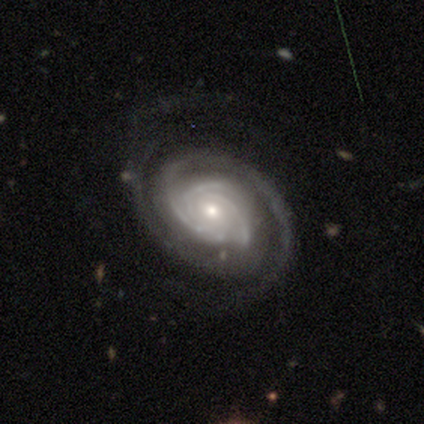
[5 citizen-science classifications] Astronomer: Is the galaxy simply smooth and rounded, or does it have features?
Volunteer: featured or disk — 100%.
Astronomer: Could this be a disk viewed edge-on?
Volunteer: no — 100%.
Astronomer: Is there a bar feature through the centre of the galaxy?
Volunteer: no — 80%.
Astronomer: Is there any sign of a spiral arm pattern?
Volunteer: yes — 100%.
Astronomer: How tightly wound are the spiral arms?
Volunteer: tight — 60%.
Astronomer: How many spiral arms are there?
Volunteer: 3 — 40%, tied with can't tell at 40%.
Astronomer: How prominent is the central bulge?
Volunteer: small — 60% (runner-up: moderate, 40%).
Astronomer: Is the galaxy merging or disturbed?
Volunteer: none — 80%.